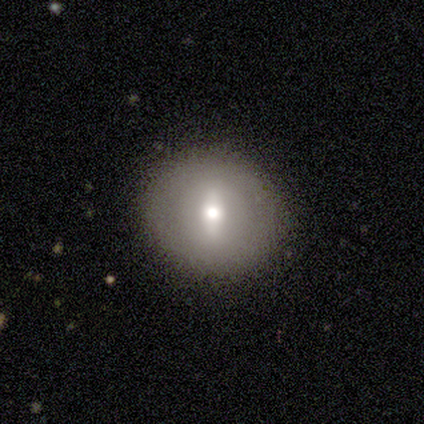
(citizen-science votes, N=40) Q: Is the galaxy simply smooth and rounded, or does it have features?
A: smooth — 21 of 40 (52%).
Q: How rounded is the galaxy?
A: round — 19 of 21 (90%).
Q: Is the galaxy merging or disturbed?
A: none — 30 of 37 (81%).